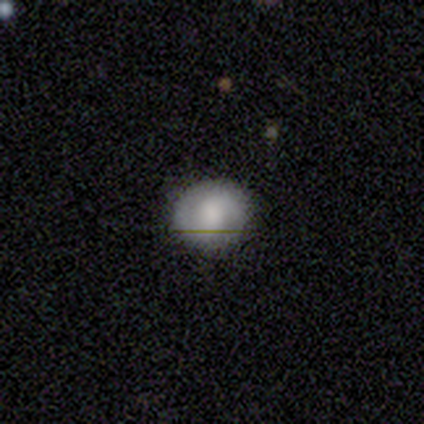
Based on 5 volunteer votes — Smooth or featured?
  - featured or disk: 80% *
  - smooth: 20%
  - star or artifact: 0%
Edge-on disk?
  - no: 75% *
  - yes: 25%
Bar?
  - no: 67% *
  - strong: 33%
  - weak: 0%
Spiral arms?
  - yes: 67% *
  - no: 33%
Spiral winding?
  - medium: 100% *
  - tight: 0%
  - loose: 0%
Spiral arm count?
  - 2: 100% *
  - 1: 0%
  - 3: 0%
  - 4: 0%
  - more than 4: 0%
  - can't tell: 0%
Bulge size?
  - small: 67% *
  - large: 33%
  - dominant: 0%
  - moderate: 0%
  - none: 0%
Merging?
  - none: 60% *
  - minor disturbance: 20%
  - major disturbance: 20%
  - merger: 0%